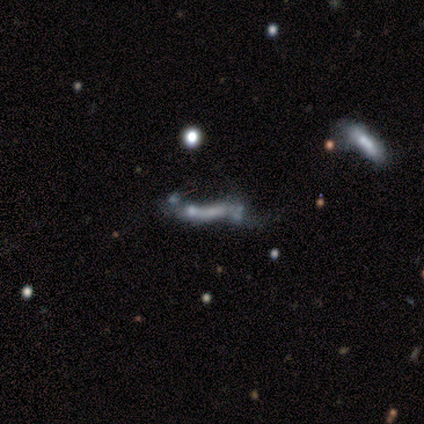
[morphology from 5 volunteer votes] This appears to be a featured or disk galaxy (100%) with no bar (75%), no spiral arms (100%) and no central bulge (75%). Merging: merger (60%).